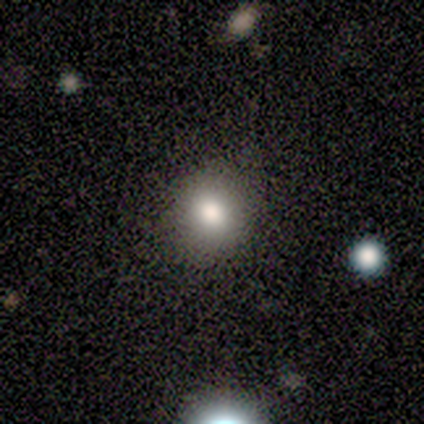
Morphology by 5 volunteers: Smooth or featured? 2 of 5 (40%, tied with star or artifact) said smooth. How rounded? 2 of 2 (100%) said round. Merging? 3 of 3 (100%) said none.